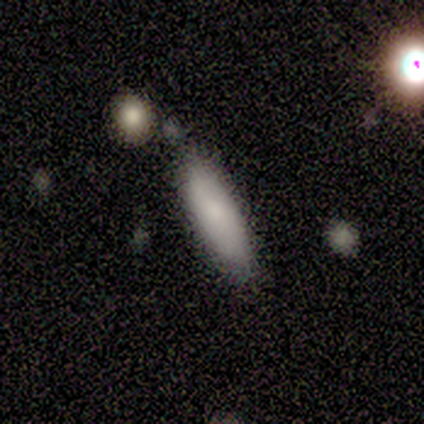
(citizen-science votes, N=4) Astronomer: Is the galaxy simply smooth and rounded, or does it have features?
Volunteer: smooth — 100%.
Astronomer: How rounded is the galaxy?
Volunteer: cigar-shaped — 75%.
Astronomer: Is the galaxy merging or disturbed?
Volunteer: none — 50%, tied with minor disturbance at 50%.